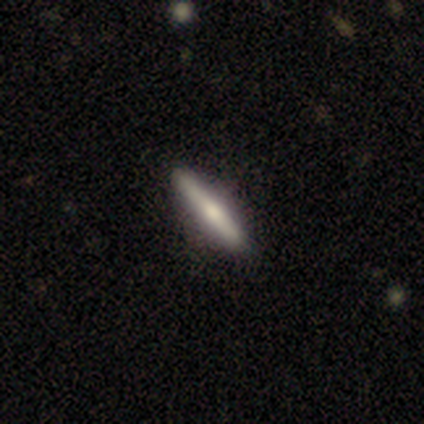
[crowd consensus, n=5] Smooth or featured?
  - smooth: 80% *
  - featured or disk: 20%
  - star or artifact: 0%
How rounded?
  - cigar-shaped: 100% *
  - round: 0%
  - in between: 0%
Merging?
  - none: 80% *
  - minor disturbance: 20%
  - major disturbance: 0%
  - merger: 0%